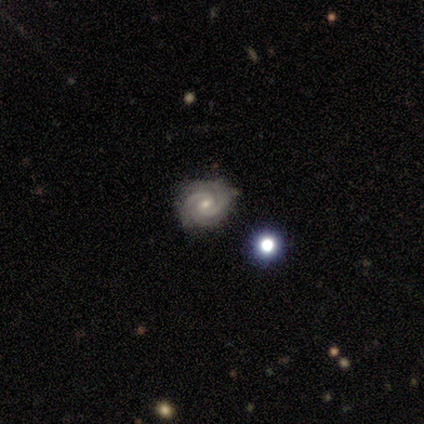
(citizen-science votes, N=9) A featured or disk galaxy (100%) with no bar (67%), 2 (56%) tight (78%) spiral arms (100%) and a small central bulge (56%). Merging: none (89%).